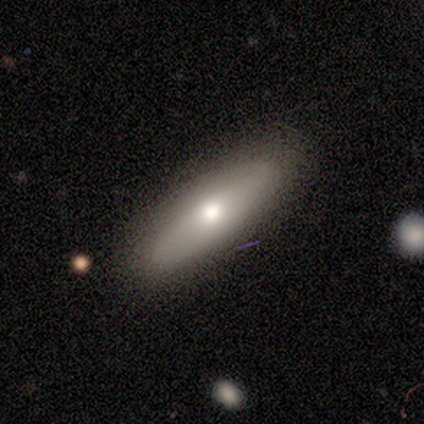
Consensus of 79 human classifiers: This appears to be a smooth galaxy with no disk features (75%) that is cigar-shaped (73%). Merging: none (83%).